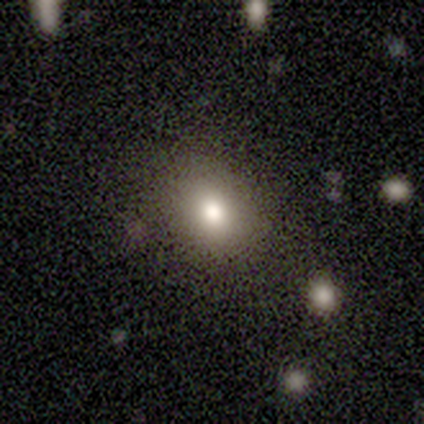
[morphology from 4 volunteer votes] This appears to be a smooth galaxy with no disk features (75%) that is in between round and cigar-shaped (100%). Merging: none (50%, tied with minor disturbance).